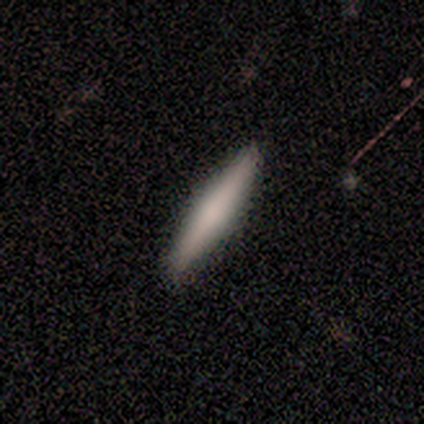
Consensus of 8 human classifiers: Overall: smooth (88%). How rounded: cigar-shaped (100%). Merging: none (88%).